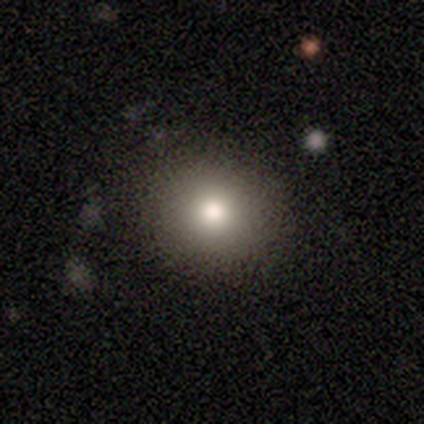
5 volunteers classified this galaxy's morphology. Smooth or featured?
  - smooth: 80% *
  - featured or disk: 20%
  - star or artifact: 0%
How rounded?
  - round: 75% *
  - in between: 25%
  - cigar-shaped: 0%
Merging?
  - none: 100% *
  - minor disturbance: 0%
  - major disturbance: 0%
  - merger: 0%